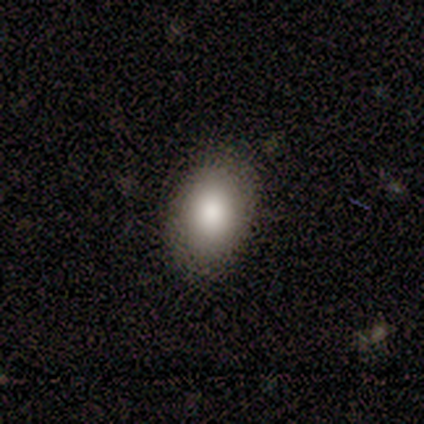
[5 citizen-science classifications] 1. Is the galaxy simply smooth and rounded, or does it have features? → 100% smooth, 0% featured or disk, 0% star or artifact.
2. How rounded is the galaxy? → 100% in between, 0% round, 0% cigar-shaped.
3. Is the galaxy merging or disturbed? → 100% none, 0% minor disturbance, 0% major disturbance, 0% merger.